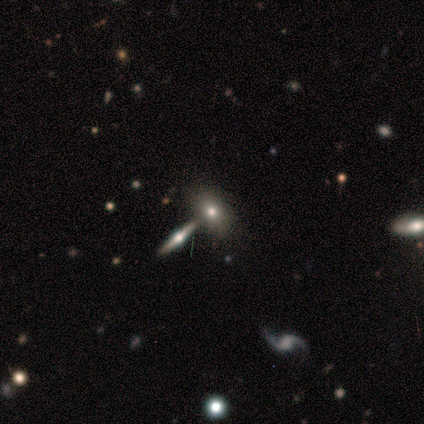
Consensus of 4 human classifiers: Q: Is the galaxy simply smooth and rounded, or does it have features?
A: featured or disk — 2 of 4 (50%).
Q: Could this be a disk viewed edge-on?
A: yes — 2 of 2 (100%).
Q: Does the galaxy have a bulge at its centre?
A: rounded — 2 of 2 (100%).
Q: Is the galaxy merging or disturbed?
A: none — 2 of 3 (67%).